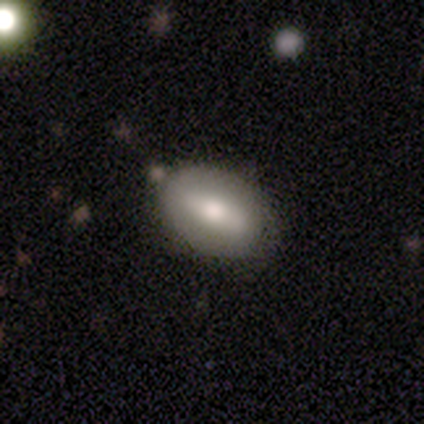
smooth_or_featured: smooth (p=0.58) [alt: featured or disk p=0.32]
how_rounded: in between (p=0.86) [alt: cigar-shaped p=0.09]
merging: none (p=0.74) [alt: minor disturbance p=0.18]